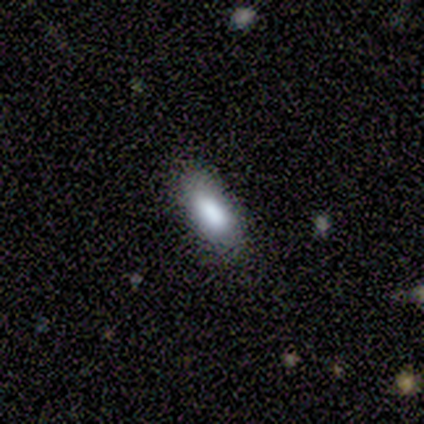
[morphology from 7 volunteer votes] This appears to be a smooth galaxy with no disk features (86%) that is in between round and cigar-shaped (50%, tied with cigar-shaped). Merging: none (57%).